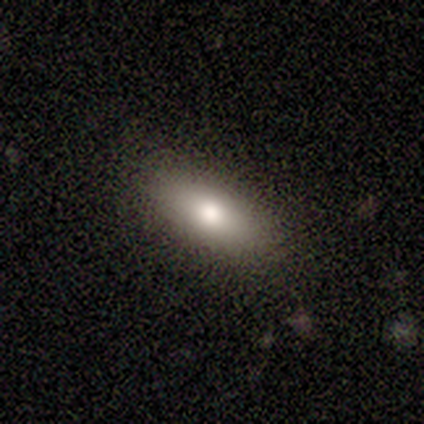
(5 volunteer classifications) A smooth galaxy with no disk features (100%) that is in between round and cigar-shaped (80%). Merging: none (80%).